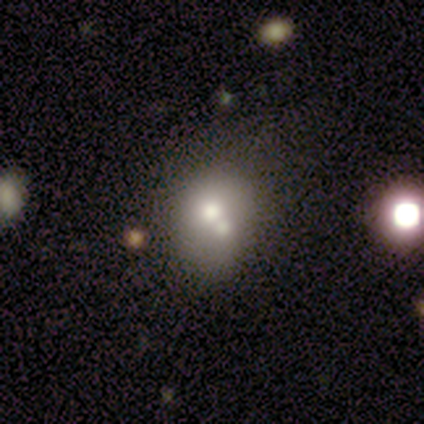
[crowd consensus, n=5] Morphology: type=smooth (80%); roundness=round (50%, tied with in between); merging=merger (60%).